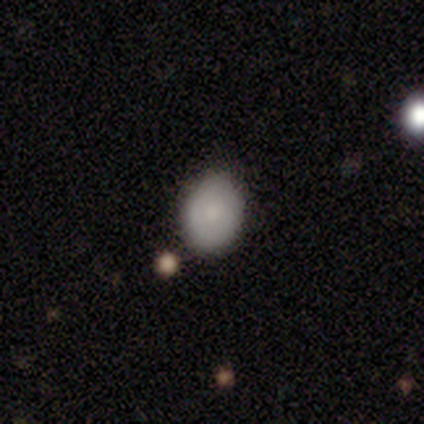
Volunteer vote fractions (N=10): This is clearly a smooth galaxy (90%). How rounded: likely in between (67%). Merging: clearly none (90%).